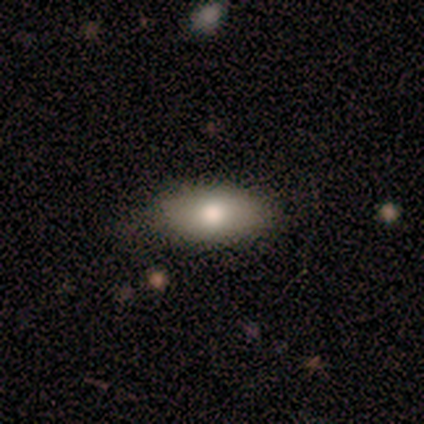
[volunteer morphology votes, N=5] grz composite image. It shows a smooth galaxy with no disk features (80%) that is in between round and cigar-shaped (100%). Merging: none (60%).